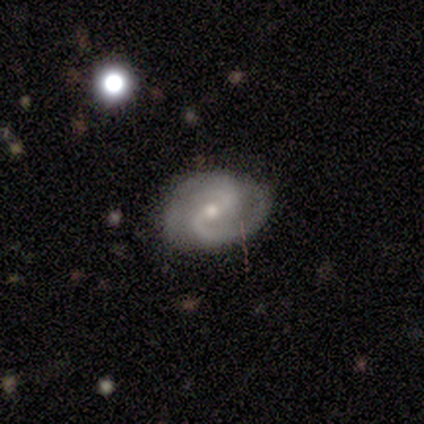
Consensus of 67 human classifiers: featured or disk 88%, smooth 7%, star or artifact 4%. Down the decision tree: edge-on disk — no (100%); bar — weak (69%); spiral arms — yes (98%); spiral arm count — 2 (90%); spiral winding — medium (55%); bulge size — moderate (56%); merging — none (69%).